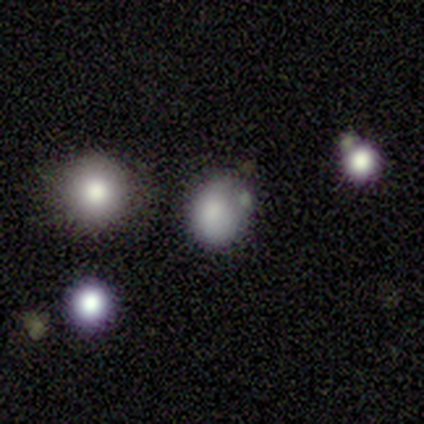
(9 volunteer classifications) A smooth galaxy with no disk features (56%) that is in between round and cigar-shaped (60%). Merging: none (40%, tied with minor disturbance).